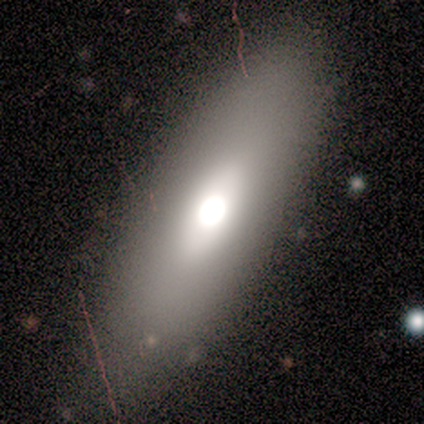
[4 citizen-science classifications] smooth-or-featured: smooth: 50% (tied) | featured or disk: 50% (tied) | star or artifact: 0%
  how-rounded: in between: 100% | round: 0% | cigar-shaped: 0%
  merging: none: 50% (tied) | minor disturbance: 50% (tied) | major disturbance: 0% | merger: 0%